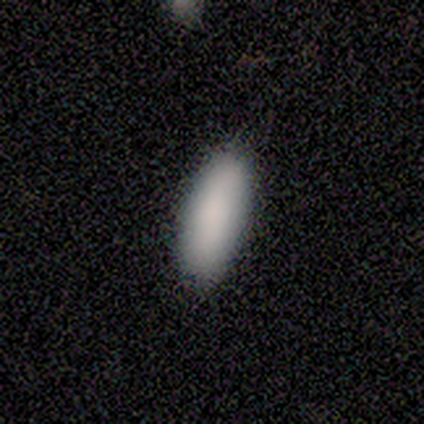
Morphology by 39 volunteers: This is clearly a smooth galaxy (90%). How rounded: clearly in between (89%). Merging: likely none (63%).